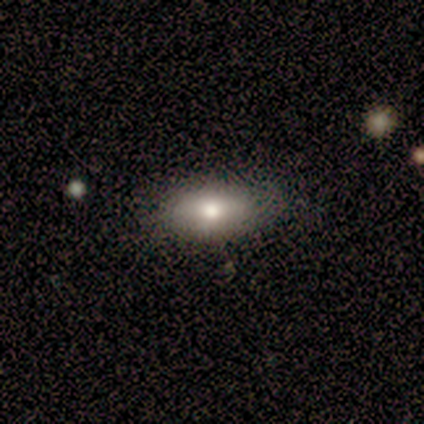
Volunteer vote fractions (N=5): This appears to be a smooth galaxy with no disk features (100%) that is in between round and cigar-shaped (100%). Merging: none (100%).